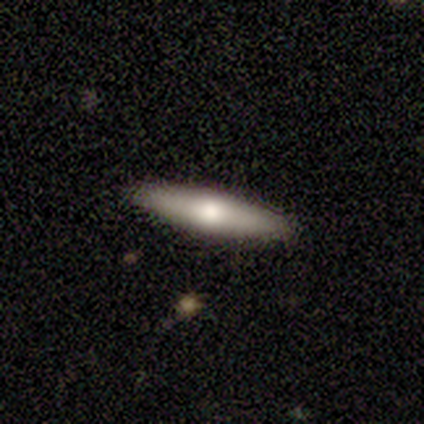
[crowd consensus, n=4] A smooth galaxy with no disk features (50%, tied with featured or disk) that is cigar-shaped (100%).

Vote fractions:
- Smooth or featured? smooth: 50% (tied) / featured or disk: 50% (tied) / star or artifact: 0%
- How rounded? cigar-shaped: 100% / round: 0% / in between: 0%
- Merging? none: 100% / minor disturbance: 0% / major disturbance: 0% / merger: 0%